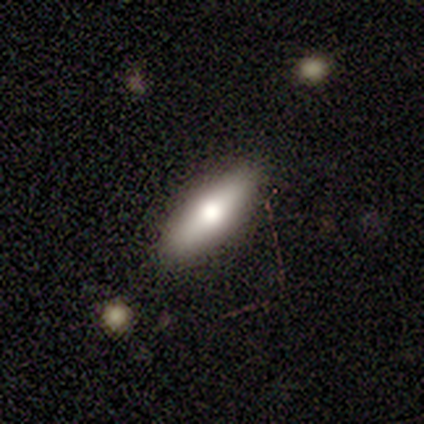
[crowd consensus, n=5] This is clearly a smooth galaxy (80%). How rounded: likely in between (75%). Merging: clearly none (80%).